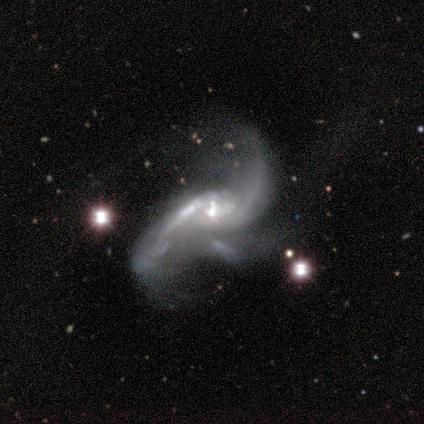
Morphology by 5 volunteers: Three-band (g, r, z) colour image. It shows a featured or disk galaxy (100%) with no bar (60%), 2 (60%) loose (100%) spiral arms (100%) and a small central bulge (40%). Merging: major disturbance (60%).